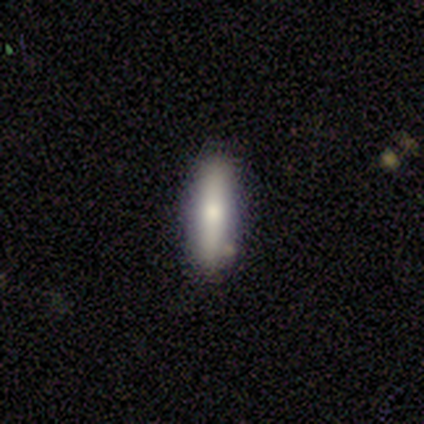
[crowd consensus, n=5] smooth_or_featured: smooth (p=0.60) [alt: featured or disk p=0.20]
how_rounded: cigar-shaped (p=0.67) [alt: in between p=0.33]
merging: none (p=1.00)